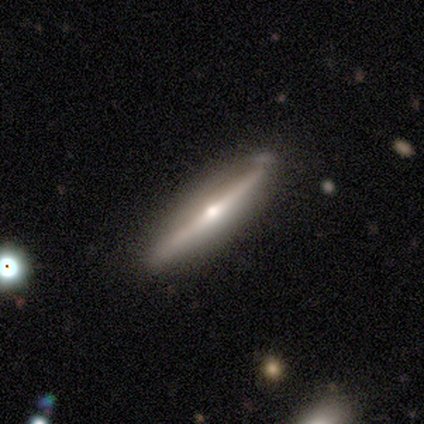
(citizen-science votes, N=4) Smooth or featured?
  - featured or disk: 75% *
  - smooth: 25%
  - star or artifact: 0%
Edge-on disk?
  - yes: 100% *
  - no: 0%
Edge-on bulge?
  - rounded: 100% *
  - boxy: 0%
  - none: 0%
Merging?
  - none: 75% *
  - minor disturbance: 25%
  - major disturbance: 0%
  - merger: 0%